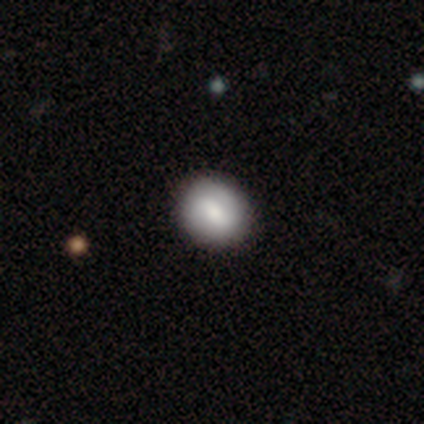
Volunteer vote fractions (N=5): A smooth galaxy with no disk features (60%) that is round (67%). Merging: none (100%).